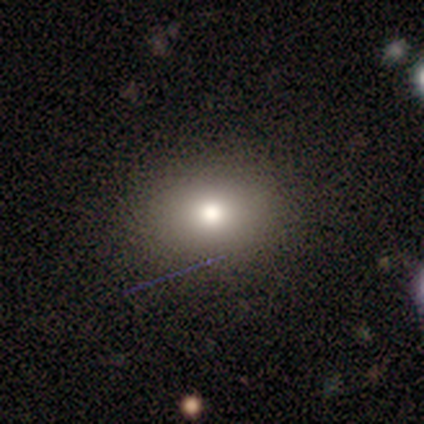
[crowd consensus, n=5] Volunteers were most divided on "how rounded": round: 75%, in between: 25%, cigar-shaped: 0%. More confident: smooth or featured — smooth (80%); merging — none (75%).